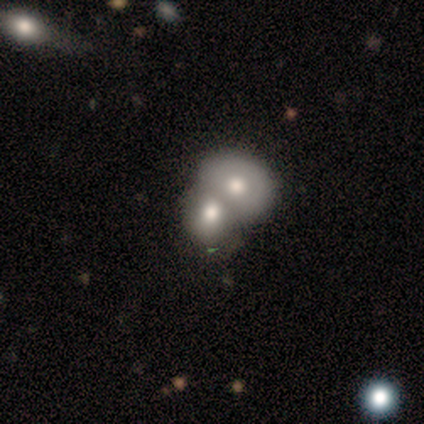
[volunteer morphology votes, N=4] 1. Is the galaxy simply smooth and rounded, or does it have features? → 50% smooth (tied), 50% featured or disk (tied), 0% star or artifact.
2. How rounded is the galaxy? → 50% round (tied), 50% in between (tied), 0% cigar-shaped.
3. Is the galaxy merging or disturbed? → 100% merger, 0% none, 0% minor disturbance, 0% major disturbance.